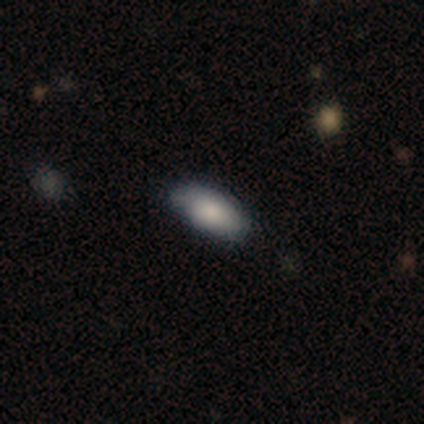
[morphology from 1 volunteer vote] Smooth or featured? smooth (100%)
How rounded? in between (100%)
Merging? none (100%)